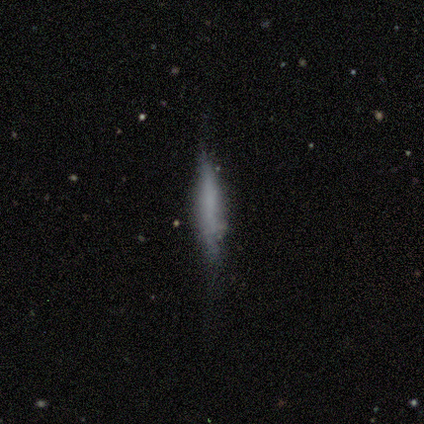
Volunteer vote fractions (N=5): Smooth or featured?
  - smooth: 60% *
  - featured or disk: 20%
  - star or artifact: 20%
How rounded?
  - cigar-shaped: 100% *
  - round: 0%
  - in between: 0%
Merging?
  - none: 50% * (tied)
  - minor disturbance: 50% * (tied)
  - major disturbance: 0%
  - merger: 0%